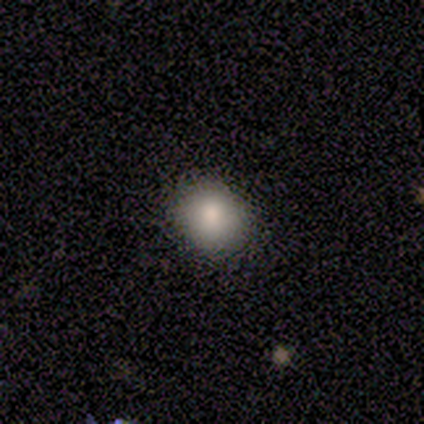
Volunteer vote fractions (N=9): This is clearly a smooth galaxy (100%). How rounded: likely round (78%). Merging: clearly none (89%).